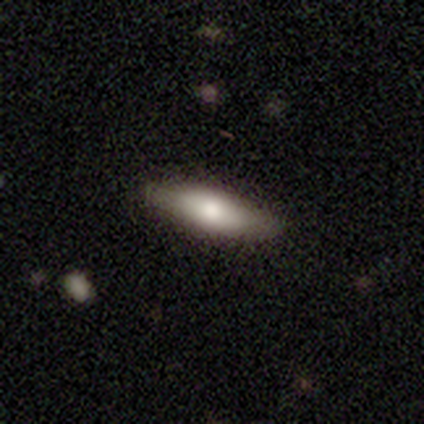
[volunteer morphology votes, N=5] Smooth or featured: smooth — 60% (featured or disk — 40%)
How rounded: in between — 67% (cigar-shaped — 33%)
Merging: none — 60% (minor disturbance — 40%)